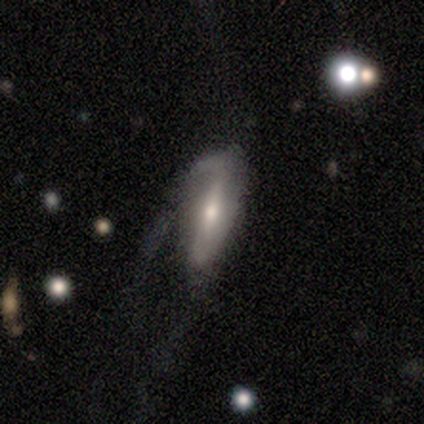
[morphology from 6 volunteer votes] Smooth or featured: featured or disk — 83% (smooth — 17%)
Edge-on disk: no — 100%
Bar: weak — 40% (tied with no — 40%)
Spiral arms: yes — 80% (no — 20%)
Spiral winding: medium — 50% (tied with loose — 50%)
Spiral arm count: 1 — 50% (tied with 2 — 50%)
Bulge size: moderate — 60% (small — 40%)
Merging: major disturbance — 67% (none — 33%)